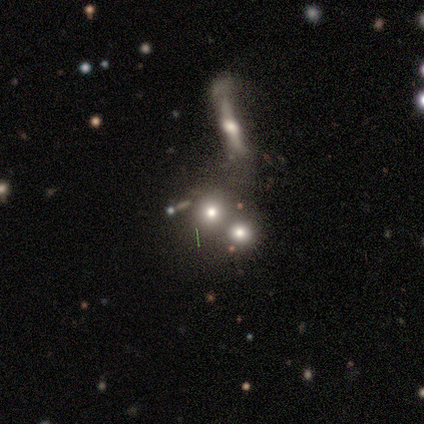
Smooth or featured? 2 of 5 (40%, tied with star or artifact) said smooth. How rounded? 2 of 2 (100%) said round. Merging? 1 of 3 (33%, tied with major disturbance and merger) said none.